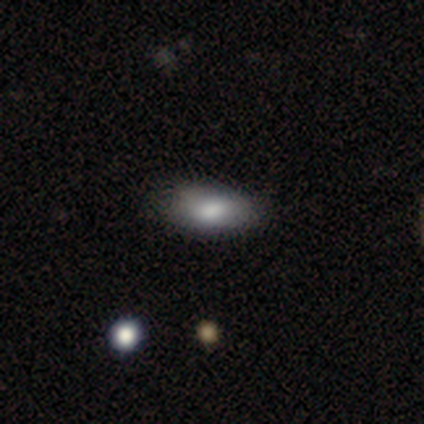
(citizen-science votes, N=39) Smooth or featured: smooth — 85% (featured or disk — 10%)
How rounded: in between — 88% (cigar-shaped — 9%)
Merging: none — 62% (minor disturbance — 35%)